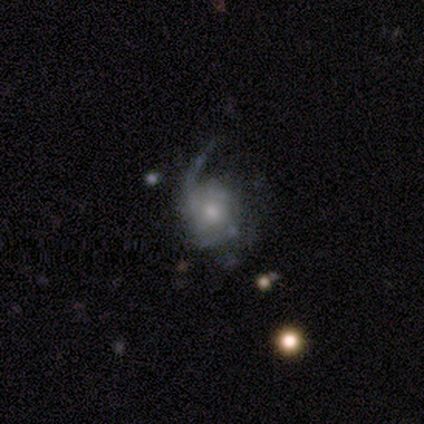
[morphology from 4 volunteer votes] Volunteers were most divided on "merging" (2-way tie): none: 50%, minor disturbance: 50%, major disturbance: 0%, merger: 0%. More confident: smooth or featured — featured or disk (100%); edge-on disk — no (100%); bar — no (100%); spiral arms — yes (100%); bulge size — moderate (100%); spiral arm count — 1 (75%); spiral winding — tight (50%).